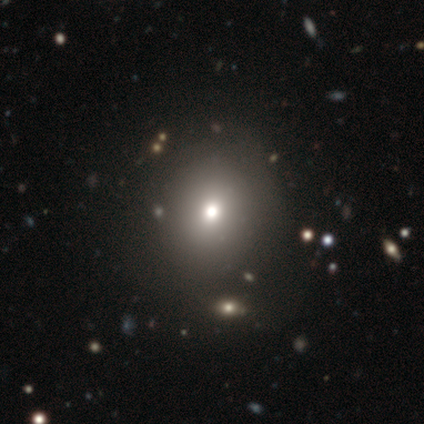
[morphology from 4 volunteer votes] This is possibly a smooth galaxy (50%, tied with featured or disk). How rounded: possibly round (50%, tied with in between). Merging: possibly none (50%).